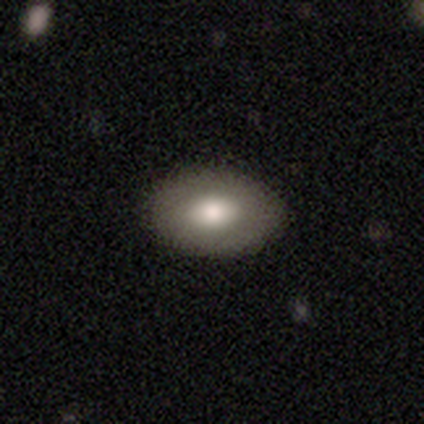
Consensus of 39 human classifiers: A smooth galaxy with no disk features (79%) that is in between round and cigar-shaped (90%).

Vote fractions:
- Smooth or featured? smooth: 79% / featured or disk: 18% / star or artifact: 3%
- How rounded? in between: 90% / round: 10% / cigar-shaped: 0%
- Merging? none: 50% / minor disturbance: 11% / major disturbance: 3% / merger: 0%